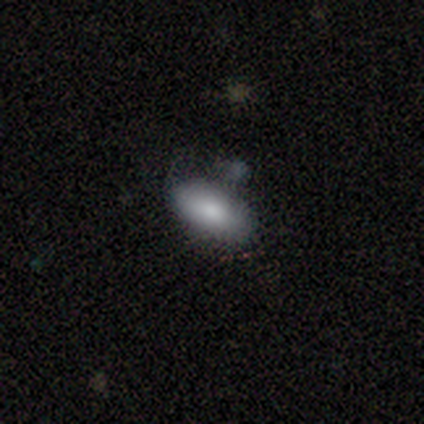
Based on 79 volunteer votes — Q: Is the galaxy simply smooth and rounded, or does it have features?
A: smooth — 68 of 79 (86%).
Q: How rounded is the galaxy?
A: in between — 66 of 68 (97%).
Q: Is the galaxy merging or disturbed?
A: none — 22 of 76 (29%).